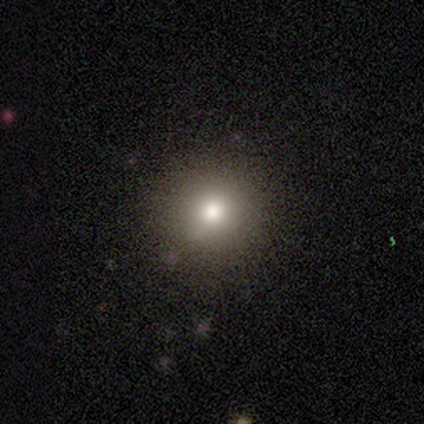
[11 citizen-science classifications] A smooth galaxy with no disk features (73%) that is round (100%).

Vote fractions:
- Smooth or featured? smooth: 73% / featured or disk: 18% / star or artifact: 9%
- How rounded? round: 100% / in between: 0% / cigar-shaped: 0%
- Merging? none: 100% / minor disturbance: 0% / major disturbance: 0% / merger: 0%